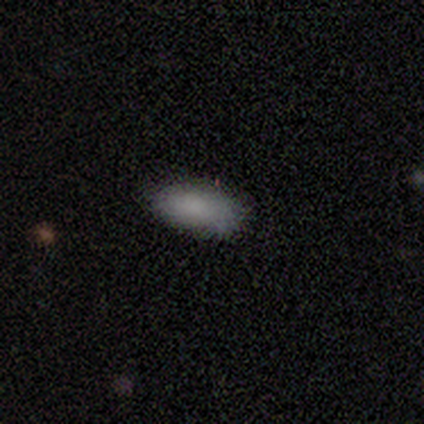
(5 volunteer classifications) Morphology: type=smooth (100%); roundness=in between (100%); merging=none (60%).